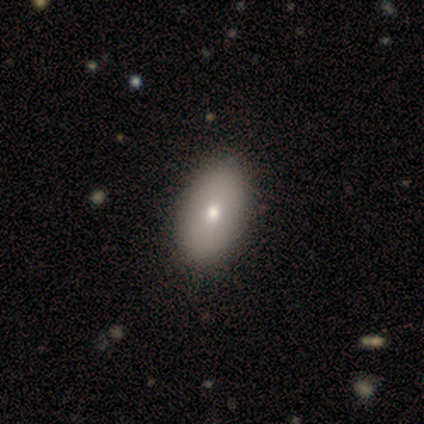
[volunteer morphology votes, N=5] Overall: smooth (100%). How rounded: in between (100%). Merging: none (60%; minor disturbance 40%).